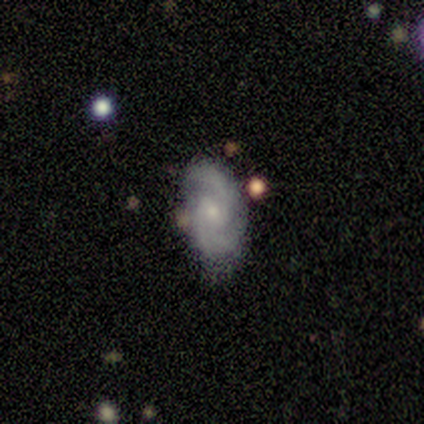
smooth-or-featured: featured or disk: 87% | smooth: 9% | star or artifact: 4%
  disk-edge-on: no: 99% | yes: 1%
    bar: no: 52% | weak: 41% | strong: 6%
    has-spiral-arms: yes: 94% | no: 6%
      spiral-winding: medium: 57% | tight: 25% | loose: 17%
      spiral-arm-count: 2: 69% | 3: 21% | can't tell: 8% | 1: 1% | 4: 0% | more than 4: 0%
    bulge-size: small: 61% | moderate: 36% | none: 2% | dominant: 0% | large: 0%
  merging: none: 66% | minor disturbance: 25% | merger: 6% | major disturbance: 3%